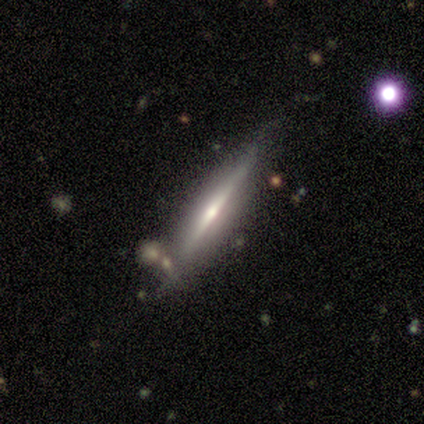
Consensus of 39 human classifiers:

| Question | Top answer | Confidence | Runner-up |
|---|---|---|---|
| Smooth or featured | featured or disk | 87% | smooth (13%) |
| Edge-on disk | yes | 100% | — |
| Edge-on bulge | rounded | 71% | boxy (15%) |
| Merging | none | 82% | merger (10%) |